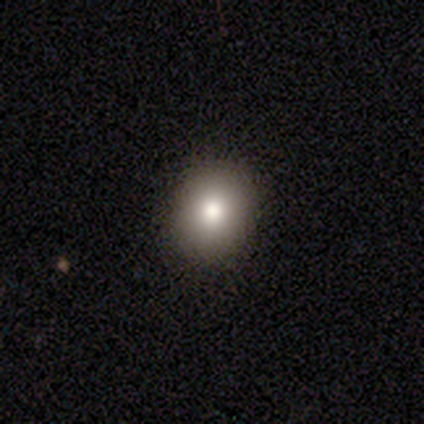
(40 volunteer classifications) Smooth or featured: smooth — 70% (featured or disk — 22%)
How rounded: round — 79% (in between — 21%)
Merging: none — 84% (minor disturbance — 16%)